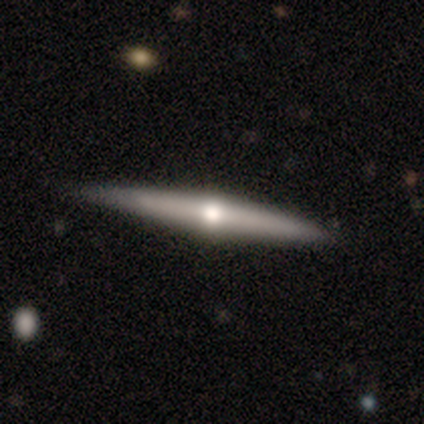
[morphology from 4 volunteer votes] Overall: featured or disk (75%). Edge-on disk: yes (100%). Edge-on bulge: rounded (100%). Merging: none (100%).